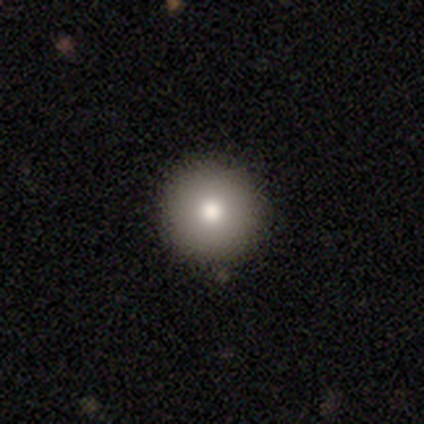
A smooth galaxy with no disk features (80%) that is round (100%).

Vote fractions:
- Smooth or featured? smooth: 80% / featured or disk: 20% / star or artifact: 0%
- How rounded? round: 100% / in between: 0% / cigar-shaped: 0%
- Merging? none: 80% / minor disturbance: 20% / major disturbance: 0% / merger: 0%